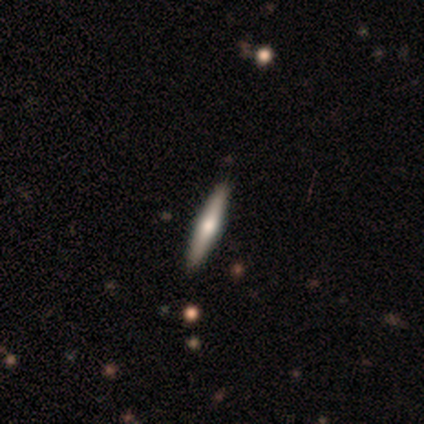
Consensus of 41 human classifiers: Smooth or featured? 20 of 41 (49%) said featured or disk. Edge-on disk? 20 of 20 (100%) said yes. Edge-on bulge? 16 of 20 (80%) said rounded. Merging? 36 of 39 (92%) said none.